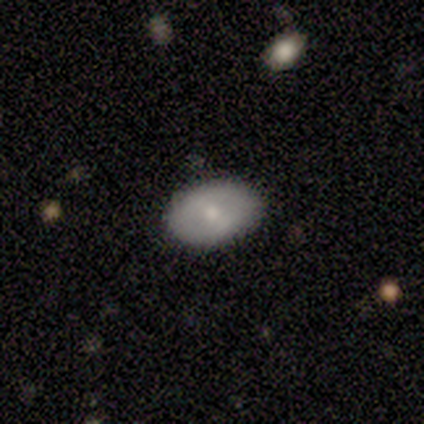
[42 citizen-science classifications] Q: Smooth or featured?
A: smooth (69%); runner-up: featured or disk (29%)
Q: How rounded?
A: in between (93%); runner-up: round (7%)
Q: Merging?
A: none (88%); runner-up: minor disturbance (12%)